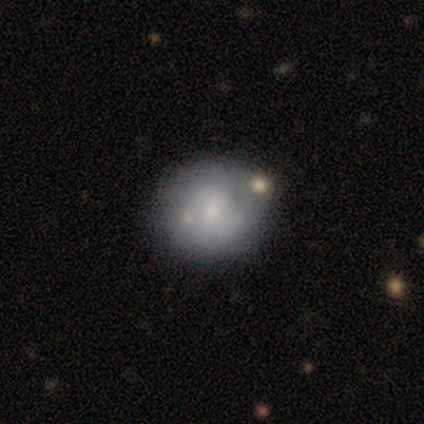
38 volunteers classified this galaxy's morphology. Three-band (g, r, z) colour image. It shows a smooth galaxy with no disk features (53%) that is round (65%). Merging: none (41%).